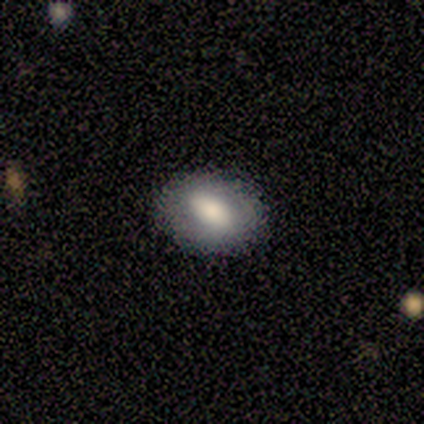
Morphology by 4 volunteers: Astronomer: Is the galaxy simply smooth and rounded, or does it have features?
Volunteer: smooth — 75%.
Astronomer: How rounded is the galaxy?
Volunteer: in between — 67%.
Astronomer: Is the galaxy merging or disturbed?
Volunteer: none — 75%.